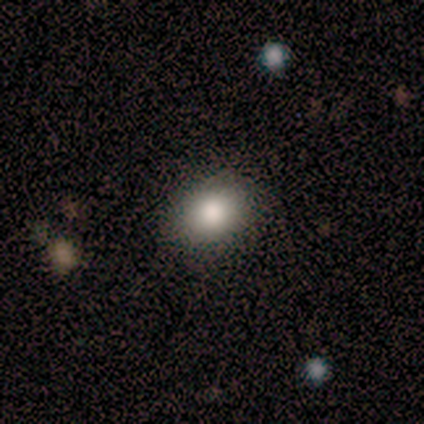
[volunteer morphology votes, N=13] Smooth or featured? 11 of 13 (85%) said smooth. How rounded? 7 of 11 (64%) said round. Merging? 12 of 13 (92%) said none.